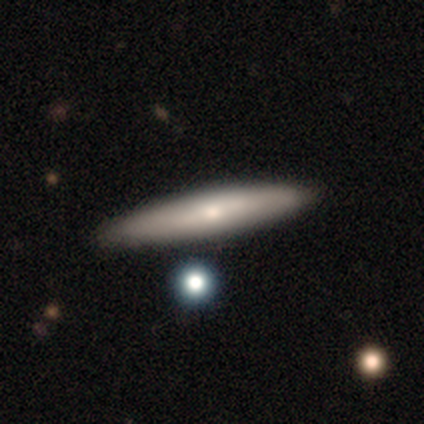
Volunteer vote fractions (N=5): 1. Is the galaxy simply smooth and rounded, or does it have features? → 80% smooth, 20% featured or disk, 0% star or artifact.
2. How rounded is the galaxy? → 75% cigar-shaped, 25% in between, 0% round.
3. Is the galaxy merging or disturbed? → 80% none, 20% minor disturbance, 0% major disturbance, 0% merger.